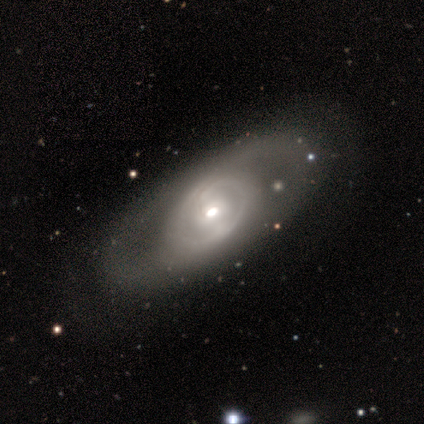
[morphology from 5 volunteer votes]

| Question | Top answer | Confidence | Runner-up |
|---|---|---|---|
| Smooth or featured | featured or disk | 100% | — |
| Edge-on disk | no | 60% | yes (40%) |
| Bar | no | 67% | weak (33%) |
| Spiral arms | no | 67% | yes (33%) |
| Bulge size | moderate | 100% | — |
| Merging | minor disturbance | 60% | none (40%) |